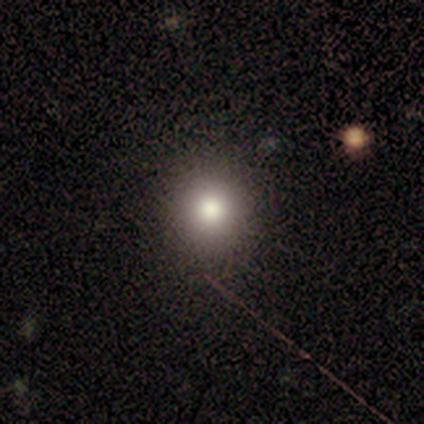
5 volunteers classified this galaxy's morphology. Q: Smooth or featured?
A: star or artifact (60%); runner-up: smooth (40%)